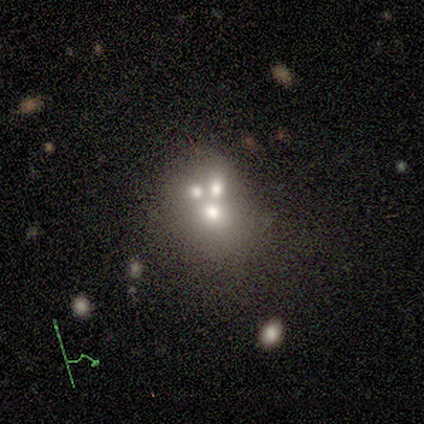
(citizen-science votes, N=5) Smooth or featured: featured or disk — 60% (smooth — 40%)
Edge-on disk: no — 100%
Bar: no — 100%
Spiral arms: no — 67% (yes — 33%)
Bulge size: large — 33% (tied with moderate — 33%; small — 33%)
Merging: merger — 60% (none — 40%)